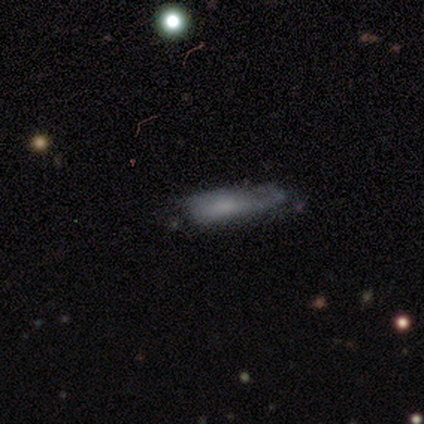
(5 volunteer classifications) A smooth galaxy with no disk features (80%) that is cigar-shaped (100%).

Vote fractions:
- Smooth or featured? smooth: 80% / featured or disk: 20% / star or artifact: 0%
- How rounded? cigar-shaped: 100% / round: 0% / in between: 0%
- Merging? none: 40% (tied) / major disturbance: 40% (tied) / minor disturbance: 20% / merger: 0%